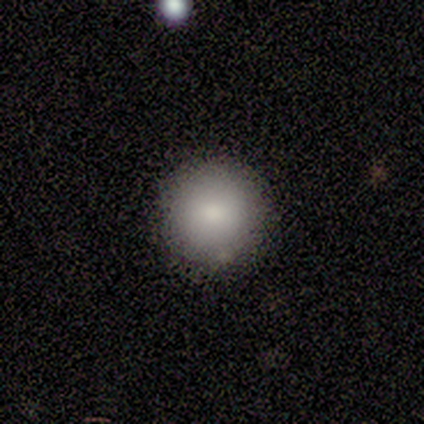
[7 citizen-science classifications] A smooth galaxy with no disk features (86%) that is round (100%). Merging: none (100%).